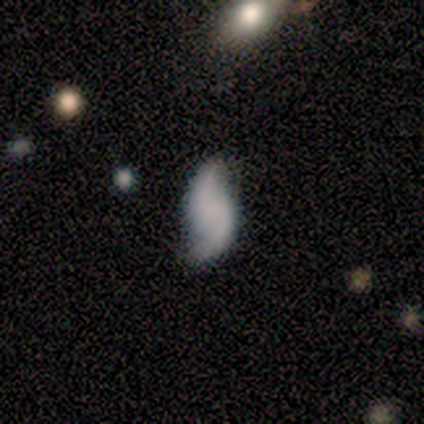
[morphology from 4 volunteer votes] This is possibly a smooth galaxy (50%, tied with featured or disk). How rounded: clearly in between (100%). Merging: likely none (75%).